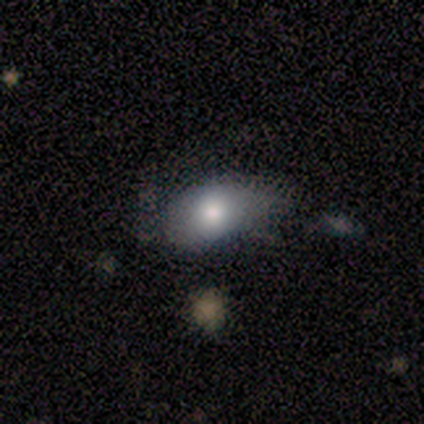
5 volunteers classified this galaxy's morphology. Smooth or featured: smooth — 100%
How rounded: in between — 60% (round — 40%)
Merging: none — 60% (minor disturbance — 40%)